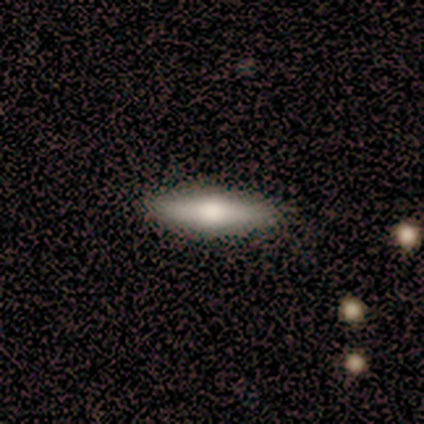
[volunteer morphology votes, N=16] Volunteers were most divided on "smooth or featured": smooth: 56%, featured or disk: 38%, star or artifact: 6%. More confident: merging — none (87%); how rounded — cigar-shaped (67%).